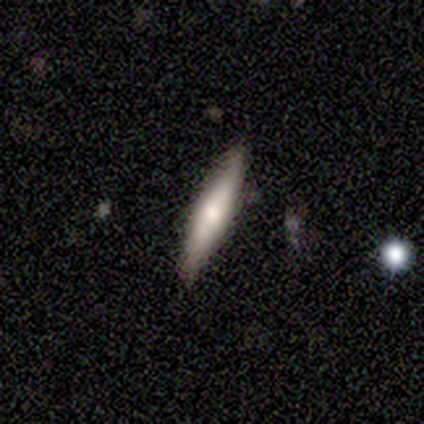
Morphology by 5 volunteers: smooth 60%, featured or disk 40%, star or artifact 0%. Down the decision tree: how rounded — cigar-shaped (100%); merging — none (100%).